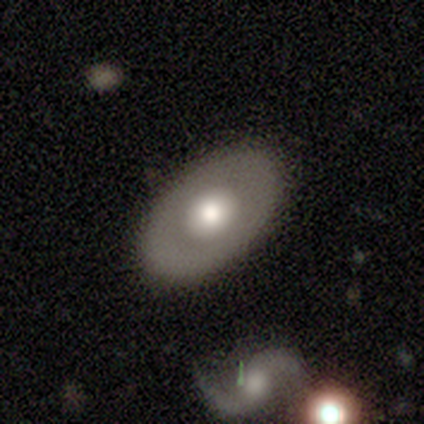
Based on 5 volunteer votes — Volunteers were most divided on "smooth or featured": smooth: 60%, featured or disk: 40%, star or artifact: 0%. More confident: how rounded — in between (100%); merging — none (60%).